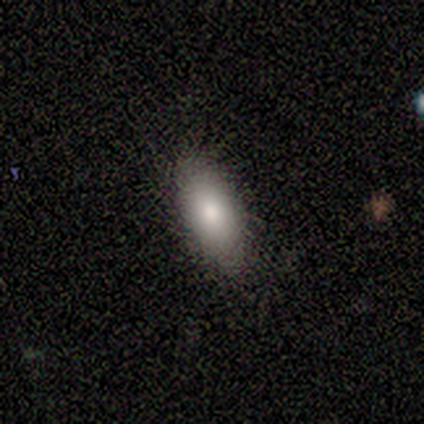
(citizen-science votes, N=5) smooth 60%, featured or disk 40%, star or artifact 0%. Down the decision tree: how rounded — in between (67%); merging — none (80%).